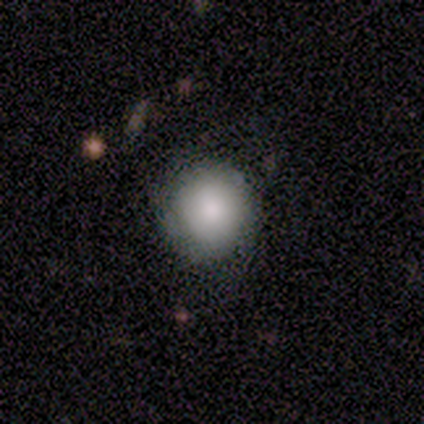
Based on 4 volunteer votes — Smooth or featured?
  - smooth: 75% *
  - featured or disk: 25%
  - star or artifact: 0%
How rounded?
  - round: 100% *
  - in between: 0%
  - cigar-shaped: 0%
Merging?
  - none: 100% *
  - minor disturbance: 0%
  - major disturbance: 0%
  - merger: 0%